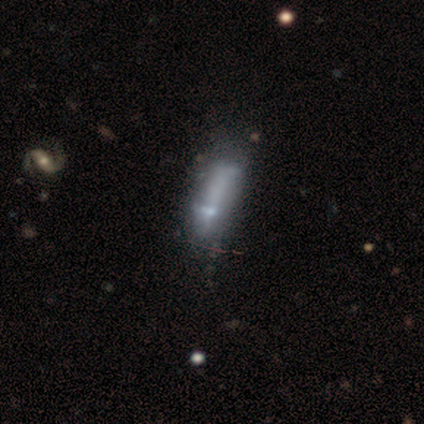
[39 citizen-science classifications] smooth_or_featured: featured or disk (p=0.64) [alt: smooth p=0.23]
disk_edge_on: no (p=0.92) [alt: yes p=0.08]
bar: no (p=0.83) [alt: strong p=0.09]
has_spiral_arms: no (p=0.91) [alt: yes p=0.09]
bulge_size: none (p=0.70) [alt: moderate p=0.17]
merging: none (p=0.18) [tied with: minor disturbance p=0.18]